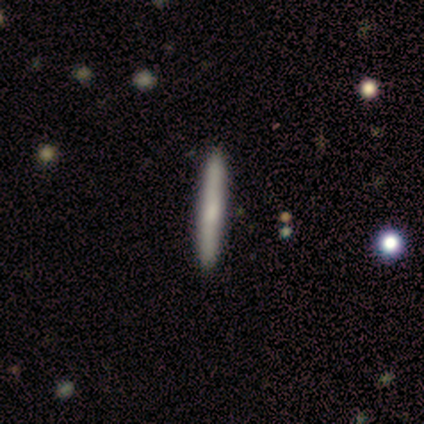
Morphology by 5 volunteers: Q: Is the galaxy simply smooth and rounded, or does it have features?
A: smooth — 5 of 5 (100%).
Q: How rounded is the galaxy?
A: cigar-shaped — 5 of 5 (100%).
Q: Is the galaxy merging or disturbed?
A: none — 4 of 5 (80%).